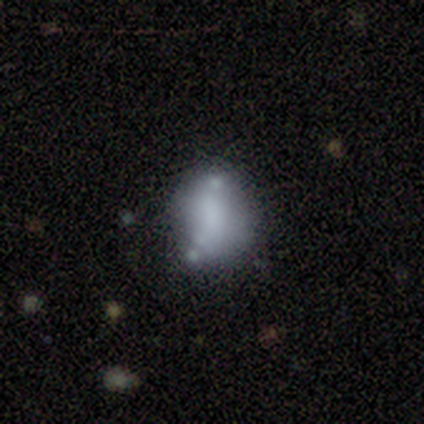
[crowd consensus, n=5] Smooth or featured? 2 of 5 (40%, tied with star or artifact) said smooth. How rounded? 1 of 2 (50%, tied with in between) said round. Merging? 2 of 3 (67%) said minor disturbance.